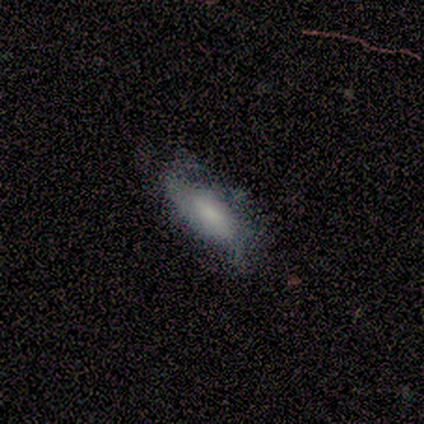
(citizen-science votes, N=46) smooth_or_featured: featured or disk (p=0.52) [alt: smooth p=0.43]
disk_edge_on: no (p=0.92) [alt: yes p=0.08]
bar: no (p=0.50) [alt: weak p=0.36]
has_spiral_arms: yes (p=0.73) [alt: no p=0.27]
spiral_winding: loose (p=0.44) [alt: medium p=0.38]
spiral_arm_count: 2 (p=0.62) [alt: can't tell p=0.31]
bulge_size: moderate (p=0.27) [tied with: small p=0.27]
merging: none (p=0.43) [alt: minor disturbance p=0.36]